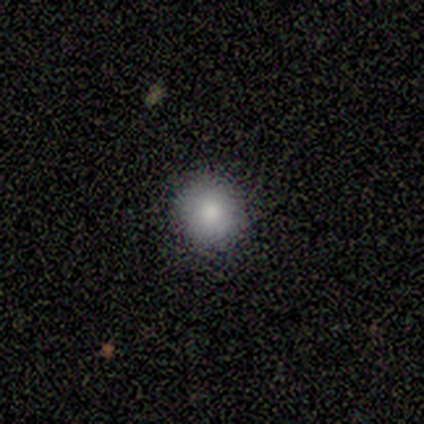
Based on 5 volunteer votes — Smooth or featured? 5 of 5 (100%) said smooth. How rounded? 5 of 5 (100%) said round. Merging? 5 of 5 (100%) said none.